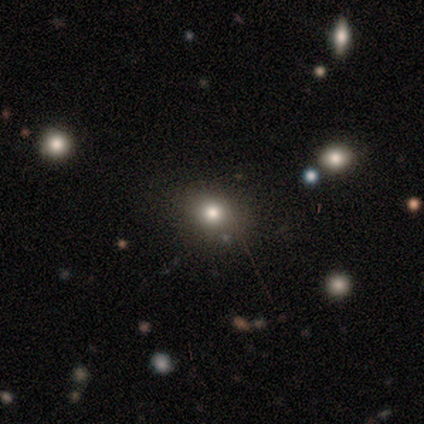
smooth_or_featured: smooth (p=0.57) [alt: star or artifact p=0.29]
how_rounded: round (p=0.50) [tied with: in between p=0.50]
merging: none (p=1.00)